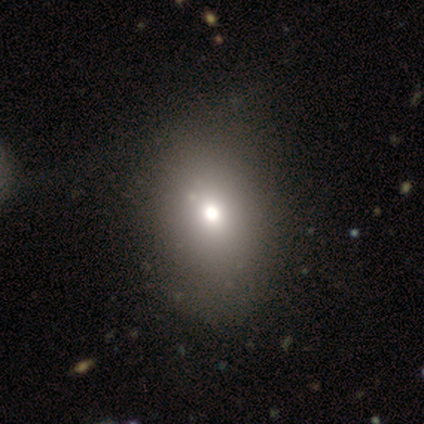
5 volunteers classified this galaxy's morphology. Smooth or featured?
  - smooth: 80% *
  - featured or disk: 20%
  - star or artifact: 0%
How rounded?
  - in between: 100% *
  - round: 0%
  - cigar-shaped: 0%
Merging?
  - none: 100% *
  - minor disturbance: 0%
  - major disturbance: 0%
  - merger: 0%